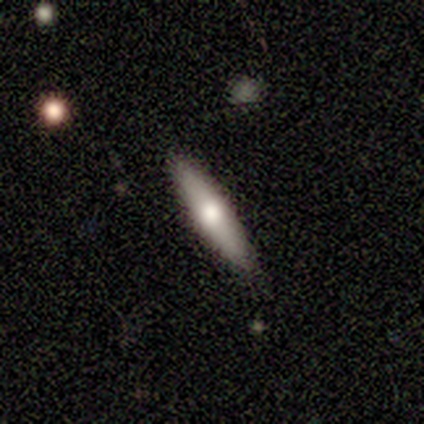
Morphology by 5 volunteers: smooth 60%, featured or disk 40%, star or artifact 0%. Down the decision tree: how rounded — cigar-shaped (67%); merging — none (100%).